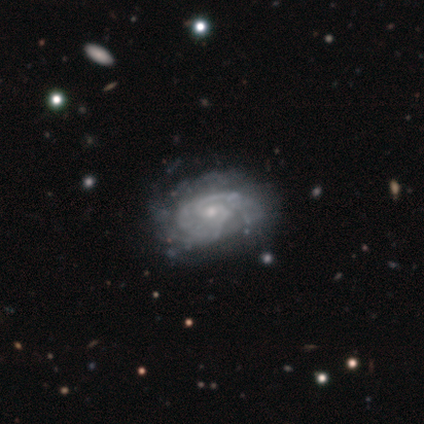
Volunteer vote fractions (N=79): smooth_or_featured: featured or disk (p=0.87) [alt: smooth p=0.13]
disk_edge_on: no (p=1.00)
bar: no (p=0.57) [alt: weak p=0.41]
has_spiral_arms: yes (p=0.90) [alt: no p=0.10]
spiral_winding: tight (p=0.55) [alt: medium p=0.35]
spiral_arm_count: 2 (p=0.47) [alt: can't tell p=0.31]
bulge_size: small (p=0.77) [alt: moderate p=0.17]
merging: none (p=0.33) [alt: minor disturbance p=0.10]